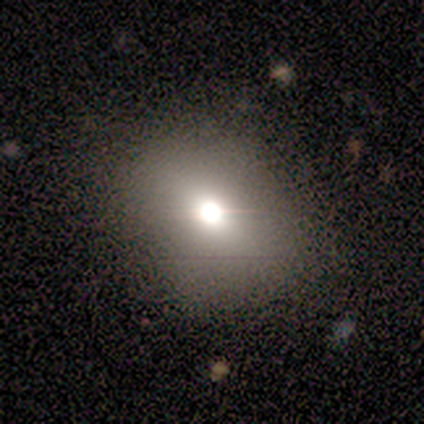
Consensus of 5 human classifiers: Smooth or featured? smooth (60%)
How rounded? round (100%)
Merging? none (100%)